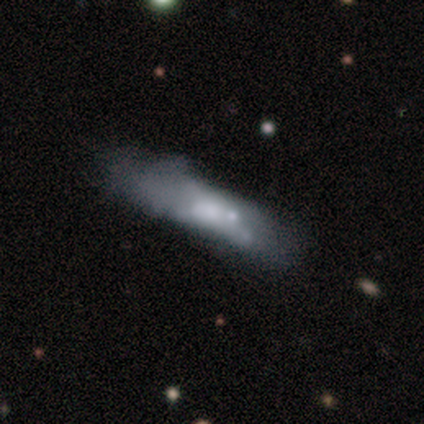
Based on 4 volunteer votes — This is likely a smooth galaxy (75%). How rounded: likely cigar-shaped (67%). Merging: likely minor disturbance (67%).